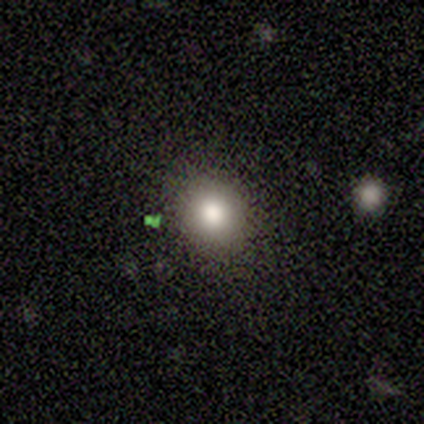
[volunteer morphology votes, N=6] smooth_or_featured: smooth (p=0.50) [tied with: star or artifact p=0.50]
how_rounded: in between (p=1.00)
merging: minor disturbance (p=0.67) [alt: none p=0.33]